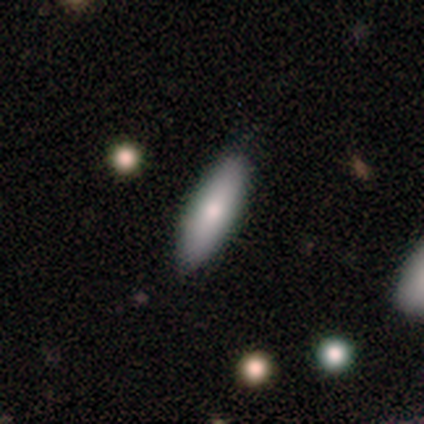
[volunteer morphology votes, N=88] A smooth galaxy with no disk features (68%) that is cigar-shaped (50%).

Vote fractions:
- Smooth or featured? smooth: 68% / featured or disk: 26% / star or artifact: 6%
- How rounded? cigar-shaped: 50% / in between: 48% / round: 2%
- Merging? none: 81% / minor disturbance: 16% / major disturbance: 2% / merger: 1%